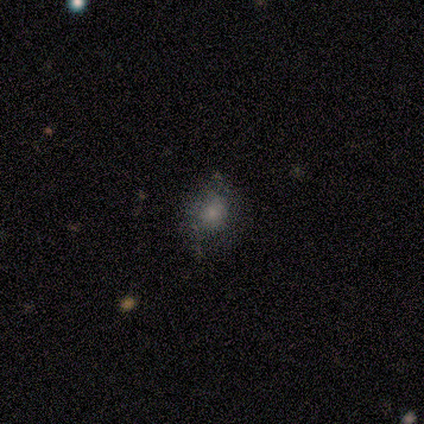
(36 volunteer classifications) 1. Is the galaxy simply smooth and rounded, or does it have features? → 64% smooth, 25% featured or disk, 11% star or artifact.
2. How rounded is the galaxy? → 65% round, 35% in between, 0% cigar-shaped.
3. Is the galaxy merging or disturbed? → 53% none, 9% minor disturbance, 9% major disturbance, 0% merger.